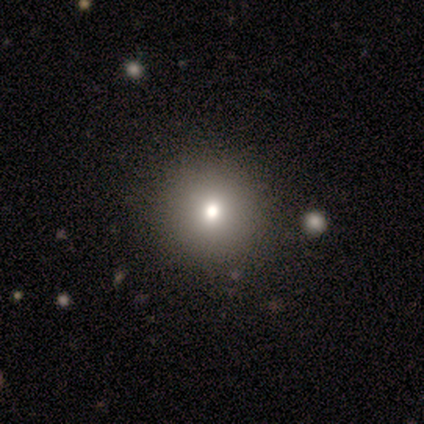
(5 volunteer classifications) A smooth galaxy with no disk features (60%) that is round (100%).

Vote fractions:
- Smooth or featured? smooth: 60% / featured or disk: 20% / star or artifact: 20%
- How rounded? round: 100% / in between: 0% / cigar-shaped: 0%
- Merging? none: 75% / major disturbance: 25% / minor disturbance: 0% / merger: 0%